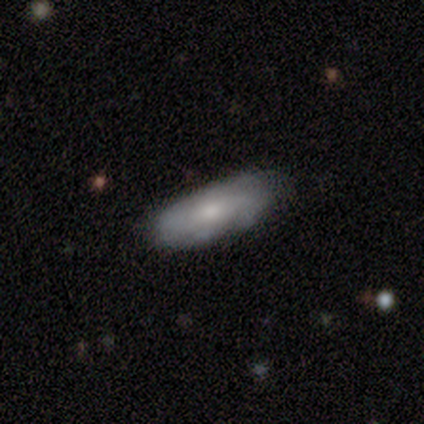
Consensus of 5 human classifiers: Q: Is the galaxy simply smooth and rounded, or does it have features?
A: smooth — 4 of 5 (80%).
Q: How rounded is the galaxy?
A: in between — 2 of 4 (50%, tied with cigar-shaped).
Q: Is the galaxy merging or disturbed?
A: minor disturbance — 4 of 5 (80%).